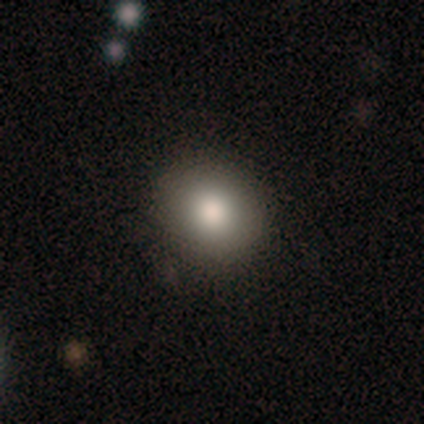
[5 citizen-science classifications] Q: Smooth or featured?
A: smooth (100%)
Q: How rounded?
A: round (100%)
Q: Merging?
A: none (100%)